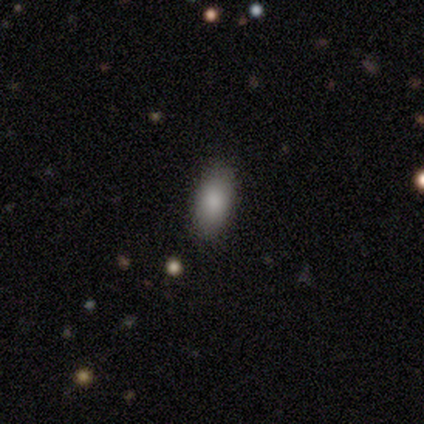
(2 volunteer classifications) Q: Smooth or featured?
A: smooth (50%); tied with: featured or disk (50%)
Q: How rounded?
A: in between (100%)
Q: Merging?
A: none (50%); tied with: minor disturbance (50%)